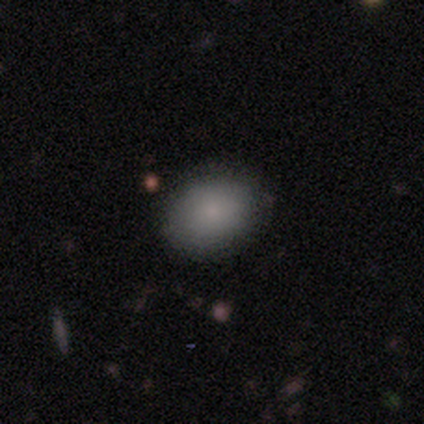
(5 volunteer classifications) smooth_or_featured: smooth (p=0.80) [alt: featured or disk p=0.20]
how_rounded: in between (p=1.00)
merging: none (p=0.80) [alt: major disturbance p=0.20]